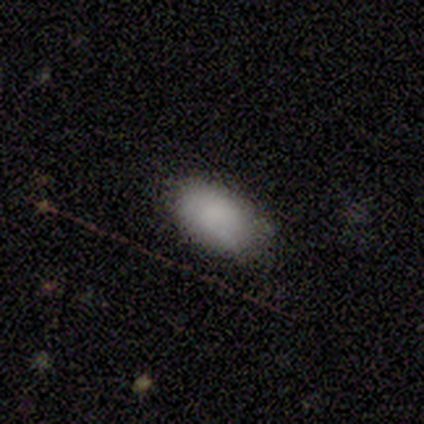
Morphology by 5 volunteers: Volunteers were most divided on "smooth or featured": smooth: 60%, featured or disk: 40%, star or artifact: 0%. More confident: how rounded — in between (67%); merging — none (60%).